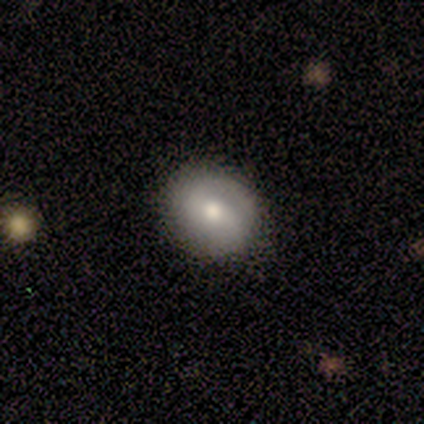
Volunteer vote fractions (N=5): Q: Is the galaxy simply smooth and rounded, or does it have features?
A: smooth — 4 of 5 (80%).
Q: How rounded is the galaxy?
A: round — 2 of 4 (50%, tied with in between).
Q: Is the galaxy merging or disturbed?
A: none — 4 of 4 (100%).